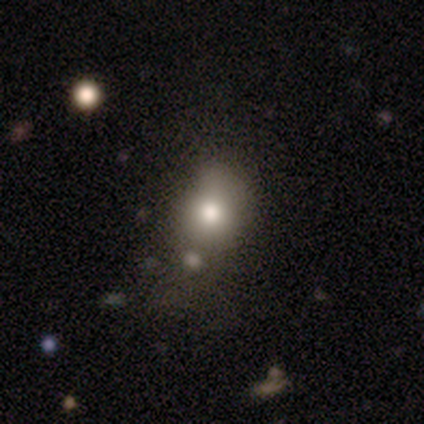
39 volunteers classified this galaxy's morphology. Smooth or featured? 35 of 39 (90%) said smooth. How rounded? 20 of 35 (57%) said round. Merging? 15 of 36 (42%) said none.